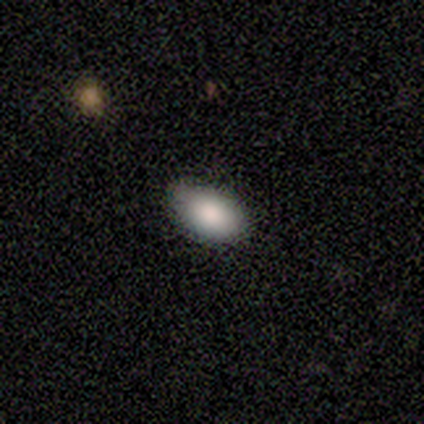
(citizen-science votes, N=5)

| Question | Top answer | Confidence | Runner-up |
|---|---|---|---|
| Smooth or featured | smooth | 60% | featured or disk (20%) |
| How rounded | in between | 67% | round (33%) |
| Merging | none | 25% | tied: minor disturbance (25%), major disturbance (25%), merger (25%) |